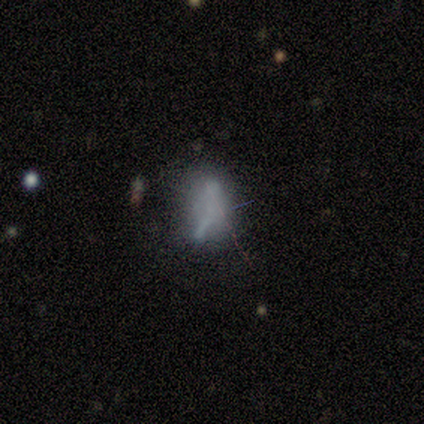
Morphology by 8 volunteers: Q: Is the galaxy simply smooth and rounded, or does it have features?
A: smooth — 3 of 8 (38%, tied with featured or disk).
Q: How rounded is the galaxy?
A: in between — 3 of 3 (100%).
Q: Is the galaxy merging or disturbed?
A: major disturbance — 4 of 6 (67%).